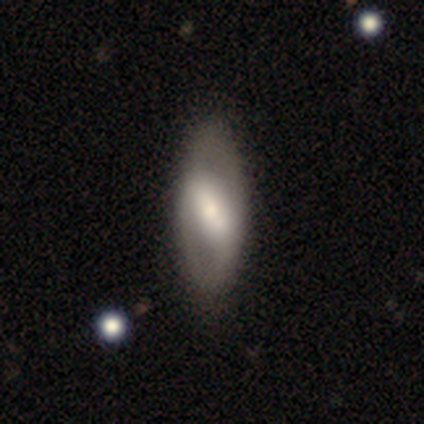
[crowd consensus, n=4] Overall: smooth (75%). How rounded: in between (100%). Merging: none (100%).